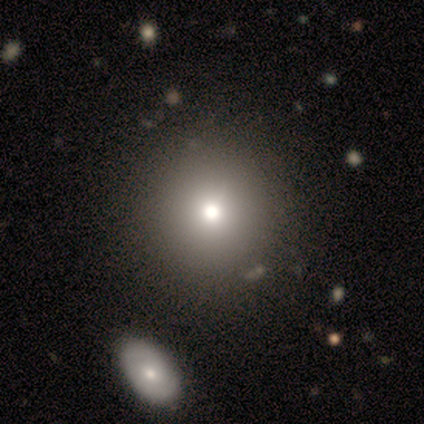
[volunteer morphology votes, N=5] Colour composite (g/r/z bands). It shows a smooth galaxy with no disk features (60%) that is round (100%). Merging: none (60%).